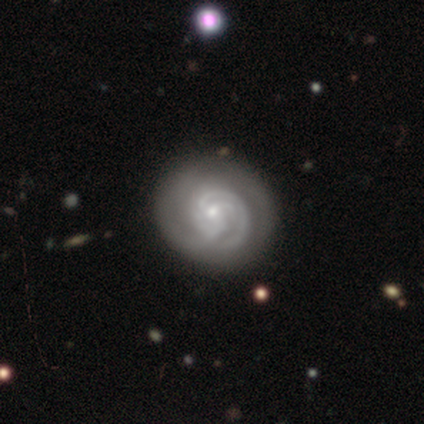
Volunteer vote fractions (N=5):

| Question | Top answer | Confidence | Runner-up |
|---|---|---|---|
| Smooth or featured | featured or disk | 60% | star or artifact (40%) |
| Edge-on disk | no | 100% | — |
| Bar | no | 100% | — |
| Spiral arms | yes | 100% | — |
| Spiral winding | tight | 67% | medium (33%) |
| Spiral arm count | can't tell | 67% | 4 (33%) |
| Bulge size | small | 67% | moderate (33%) |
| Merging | none | 67% | minor disturbance (33%) |